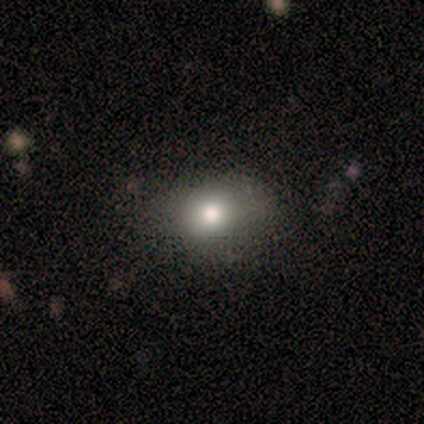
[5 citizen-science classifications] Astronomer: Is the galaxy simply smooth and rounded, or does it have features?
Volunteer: smooth — 60% (runner-up: featured or disk, 40%).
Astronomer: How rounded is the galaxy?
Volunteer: in between — 100%.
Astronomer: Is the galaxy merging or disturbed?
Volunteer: none — 60% (runner-up: minor disturbance, 40%).